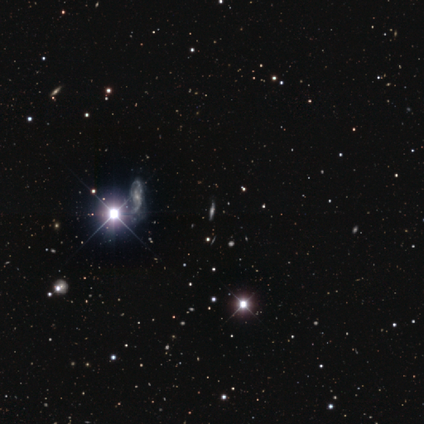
Smooth or featured? 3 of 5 (60%) said featured or disk. Edge-on disk? 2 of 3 (67%) said yes. Edge-on bulge? 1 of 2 (50%, tied with rounded) said none. Merging? 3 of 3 (100%) said none.